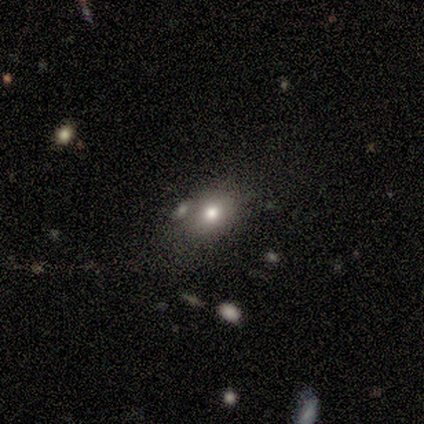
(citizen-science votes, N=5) A smooth galaxy with no disk features (100%) that is in between round and cigar-shaped (80%).

Vote fractions:
- Smooth or featured? smooth: 100% / featured or disk: 0% / star or artifact: 0%
- How rounded? in between: 80% / round: 20% / cigar-shaped: 0%
- Merging? none: 80% / merger: 20% / minor disturbance: 0% / major disturbance: 0%